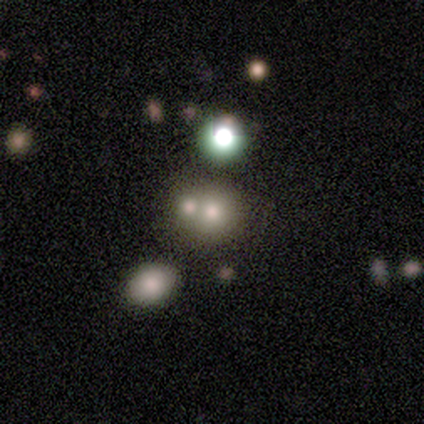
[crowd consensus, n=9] This appears to be a smooth galaxy with no disk features (67%) that is round (67%). Merging: merger (57%).